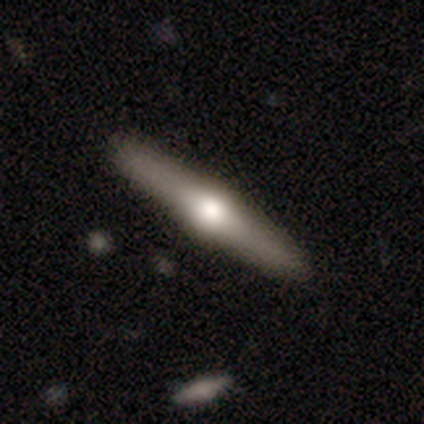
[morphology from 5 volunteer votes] Smooth or featured? featured or disk (80%)
Edge-on disk? yes (100%)
Edge-on bulge? rounded (100%)
Merging? none (100%)